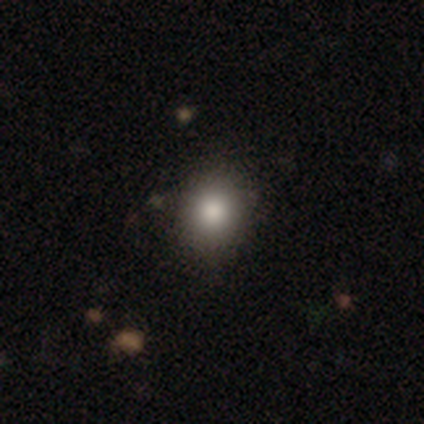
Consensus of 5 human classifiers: Overall: smooth (80%). How rounded: round (50%, tied with in between). Merging: none (75%).